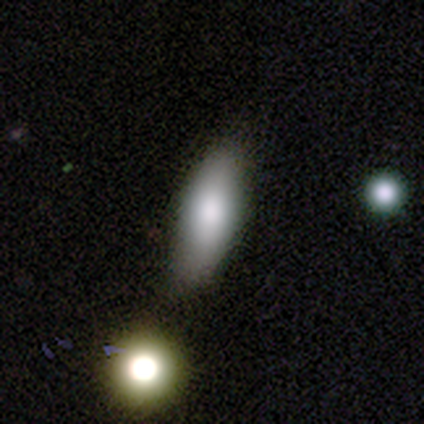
Overall: smooth (74%). How rounded: in between (79%). Merging: none (47%; minor disturbance 15%).